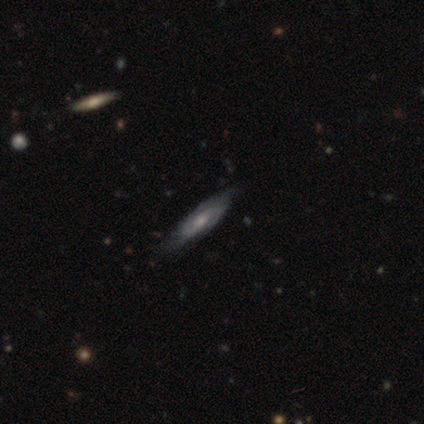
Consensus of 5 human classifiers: Overall: smooth (60%; featured or disk 40%). How rounded: cigar-shaped (100%). Merging: none (100%).